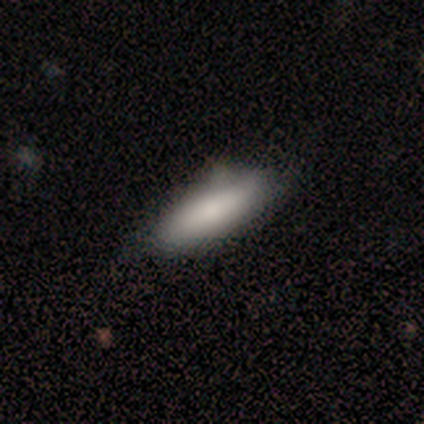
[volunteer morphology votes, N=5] This appears to be a smooth galaxy with no disk features (100%) that is cigar-shaped (60%). Merging: none (80%).